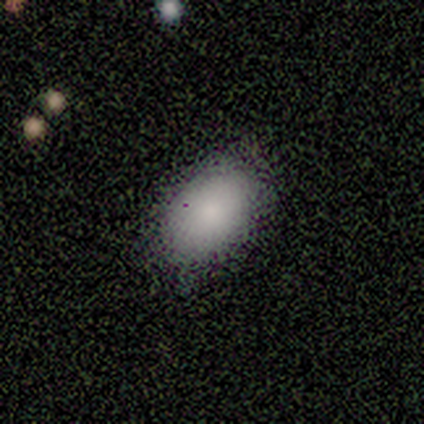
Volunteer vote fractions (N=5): Smooth or featured? 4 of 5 (80%) said smooth. How rounded? 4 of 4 (100%) said in between. Merging? 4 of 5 (80%) said none.